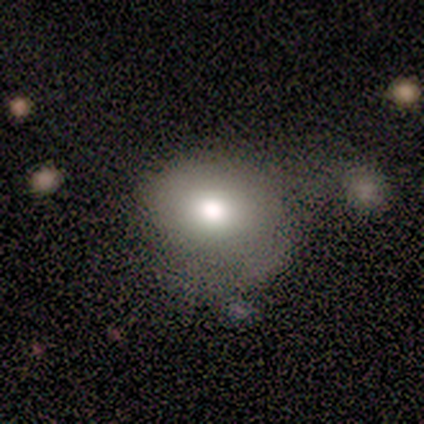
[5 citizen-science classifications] smooth_or_featured: smooth (p=0.80) [alt: featured or disk p=0.20]
how_rounded: round (p=0.50) [tied with: in between p=0.50]
merging: none (p=0.60) [alt: major disturbance p=0.20]